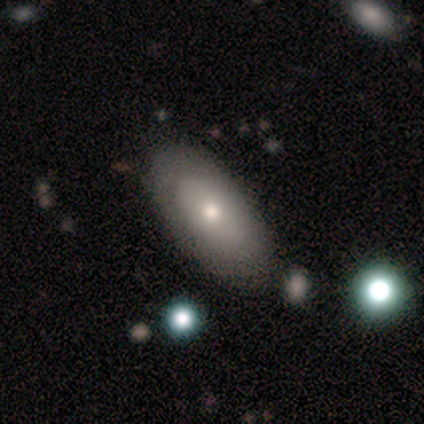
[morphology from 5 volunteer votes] Volunteers were most divided on "smooth or featured": smooth: 80%, featured or disk: 20%, star or artifact: 0%. More confident: how rounded — in between (100%); merging — none (100%).